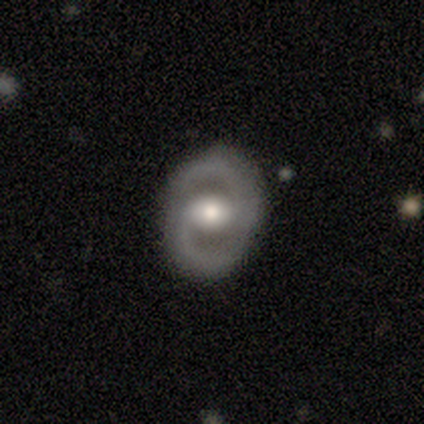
Smooth or featured? 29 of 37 (78%) said featured or disk. Edge-on disk? 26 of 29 (90%) said no. Bar? 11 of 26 (42%) said no. Spiral arms? 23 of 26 (88%) said yes. Spiral winding? 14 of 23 (61%) said medium. Spiral arm count? 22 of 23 (96%) said 2. Bulge size? 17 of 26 (65%) said moderate. Merging? 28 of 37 (76%) said none.